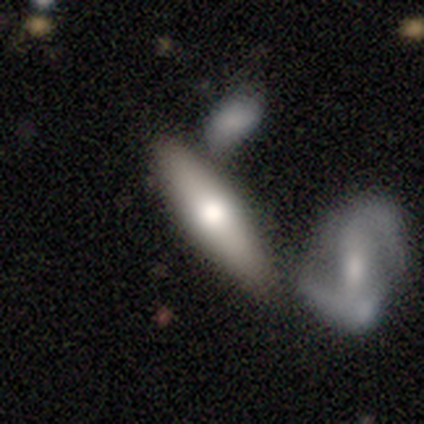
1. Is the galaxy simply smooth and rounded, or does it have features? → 60% smooth, 40% featured or disk, 0% star or artifact.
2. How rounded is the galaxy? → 67% cigar-shaped, 33% in between, 0% round.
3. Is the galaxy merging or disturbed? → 40% none (tied), 40% merger (tied), 20% minor disturbance, 0% major disturbance.